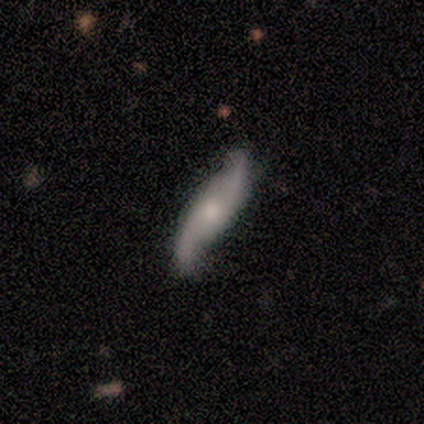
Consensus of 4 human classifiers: smooth_or_featured: featured or disk (p=1.00)
disk_edge_on: no (p=1.00)
bar: no (p=0.75) [alt: weak p=0.25]
has_spiral_arms: yes (p=1.00)
spiral_winding: loose (p=0.75) [alt: tight p=0.25]
spiral_arm_count: 2 (p=1.00)
bulge_size: moderate (p=0.75) [alt: small p=0.25]
merging: none (p=1.00)